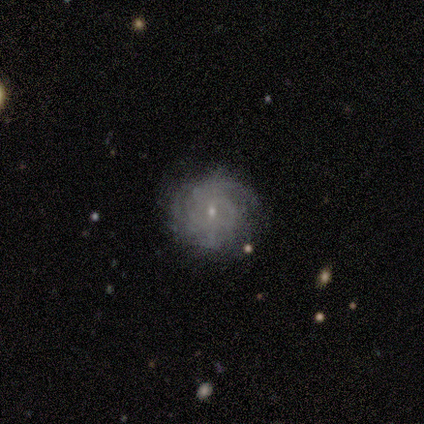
This is clearly a featured or disk galaxy (80%). It is clearly not viewed edge-on (100%). Bar: possibly weak (50%, tied with no). Spiral arm pattern: clearly yes (100%). Spiral arm count: marginally 2 (25%, tied with 3, more than 4 and can't tell). Spiral winding: likely tight (75%). Central bulge: clearly small (100%). Merging: clearly none (100%).